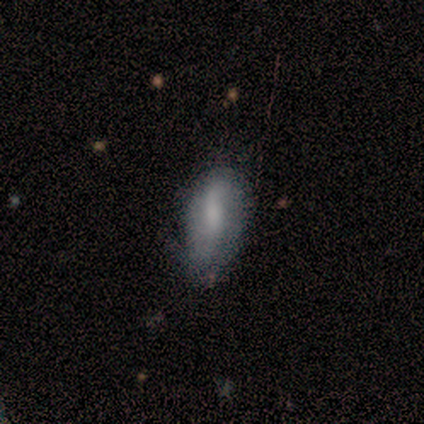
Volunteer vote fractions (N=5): A smooth galaxy with no disk features (60%) that is in between round and cigar-shaped (100%). Merging: none (40%, tied with major disturbance).